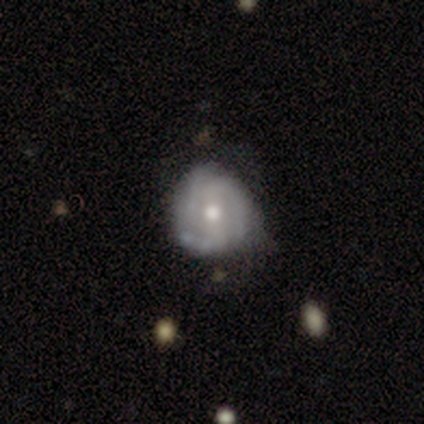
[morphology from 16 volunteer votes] featured or disk 62%, smooth 25%, star or artifact 12%. Down the decision tree: edge-on disk — no (100%); bar — no (40%); spiral arms — yes (90%); spiral arm count — 3 (44%); spiral winding — tight (78%); bulge size — moderate (80%); merging — none (71%).